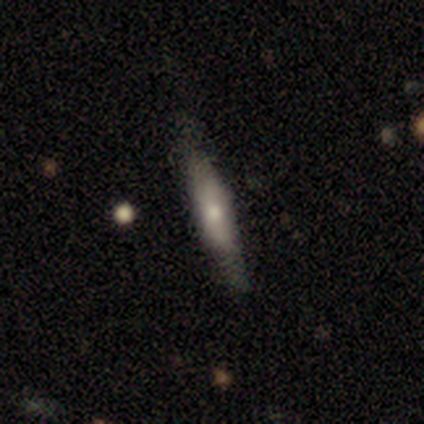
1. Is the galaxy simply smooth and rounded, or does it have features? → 50% featured or disk, 40% smooth, 10% star or artifact.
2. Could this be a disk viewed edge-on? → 80% yes, 20% no.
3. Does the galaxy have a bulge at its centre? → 75% rounded, 25% boxy, 0% none.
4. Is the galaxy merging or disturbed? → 78% none, 22% minor disturbance, 0% major disturbance, 0% merger.